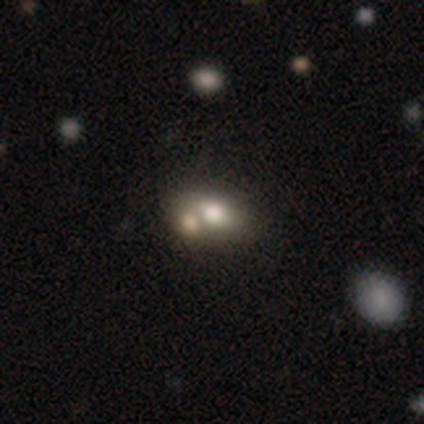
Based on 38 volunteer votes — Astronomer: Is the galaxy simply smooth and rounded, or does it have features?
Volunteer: smooth — 63%.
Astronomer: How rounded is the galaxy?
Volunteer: in between — 83%.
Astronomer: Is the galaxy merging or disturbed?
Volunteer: merger — 56% (runner-up: none, 35%).